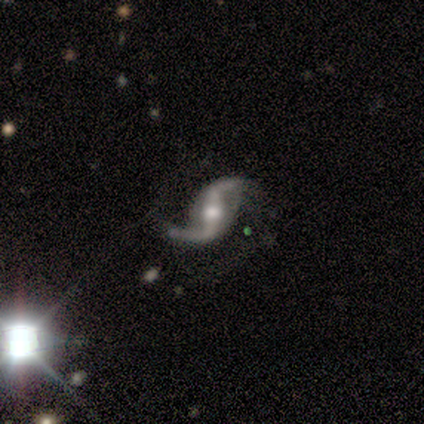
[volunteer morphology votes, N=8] Smooth or featured? 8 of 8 (100%) said featured or disk. Edge-on disk? 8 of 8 (100%) said no. Bar? 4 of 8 (50%, tied with weak) said strong. Spiral arms? 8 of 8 (100%) said yes. Spiral winding? 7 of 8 (88%) said loose. Spiral arm count? 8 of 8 (100%) said 2. Bulge size? 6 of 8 (75%) said moderate. Merging? 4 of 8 (50%) said none.